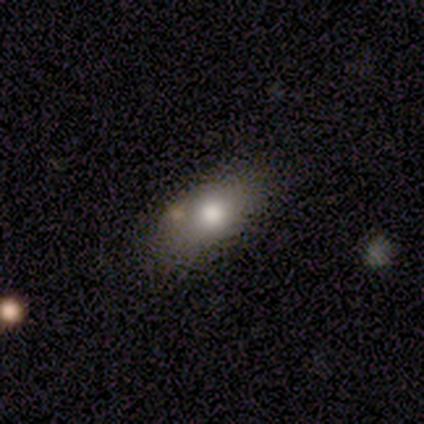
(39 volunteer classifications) Overall: smooth (82%). How rounded: in between (97%). Merging: none (65%; minor disturbance 30%).